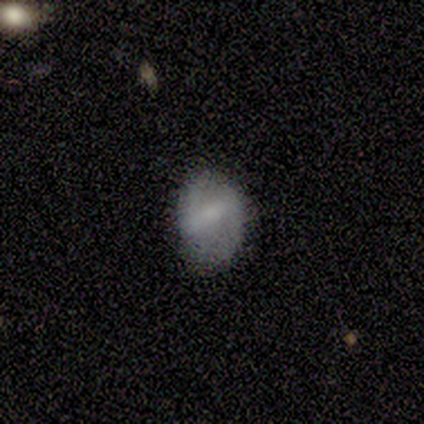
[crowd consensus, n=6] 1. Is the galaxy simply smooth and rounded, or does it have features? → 50% smooth (tied), 50% featured or disk (tied), 0% star or artifact.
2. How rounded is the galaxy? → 100% in between, 0% round, 0% cigar-shaped.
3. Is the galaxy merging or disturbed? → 50% none (tied), 50% minor disturbance (tied), 0% major disturbance, 0% merger.